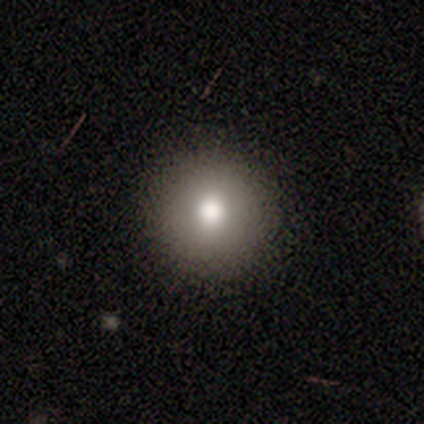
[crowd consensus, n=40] A smooth galaxy with no disk features (72%) that is round (93%). Merging: none (71%).